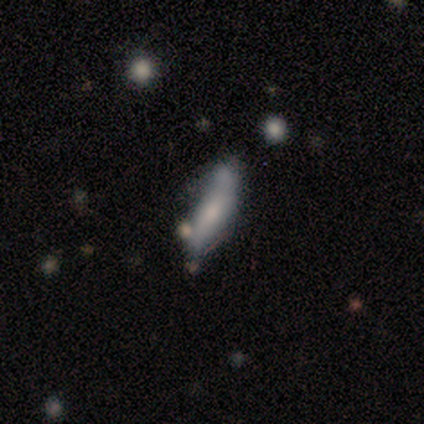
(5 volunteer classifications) Morphology: type=smooth (40%, tied with featured or disk); roundness=cigar-shaped (100%); merging=none (50%, tied with minor disturbance).